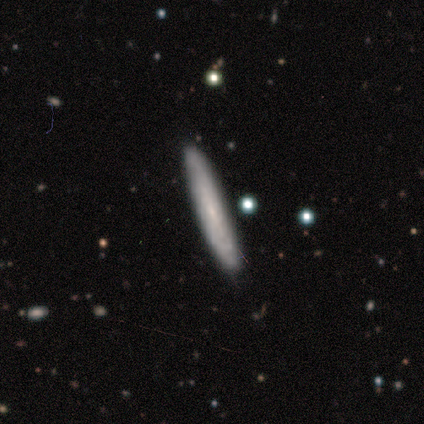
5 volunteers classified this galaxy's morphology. Q: Smooth or featured?
A: smooth (80%); runner-up: featured or disk (20%)
Q: How rounded?
A: cigar-shaped (100%)
Q: Merging?
A: none (100%)